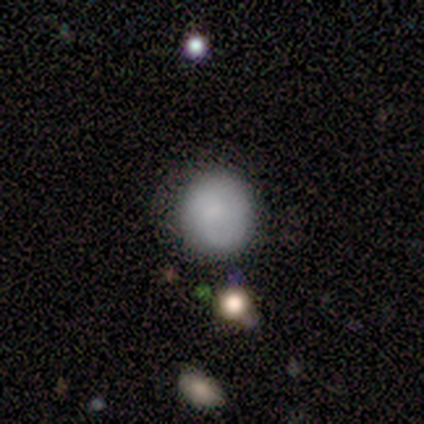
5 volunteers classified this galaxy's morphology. Smooth or featured: smooth — 80% (featured or disk — 20%)
How rounded: round — 100%
Merging: none — 100%